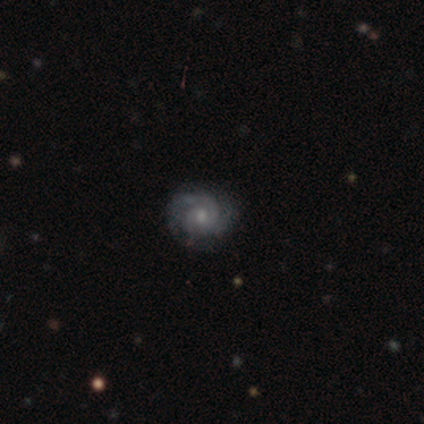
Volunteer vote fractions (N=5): Volunteers were most divided on "spiral winding" (2-way tie): tight: 50%, medium: 50%, loose: 0%. More confident: edge-on disk — no (100%); spiral arms — yes (100%); smooth or featured — featured or disk (80%); merging — none (80%); bar — no (75%); bulge size — moderate (75%); spiral arm count — 2 (50%).